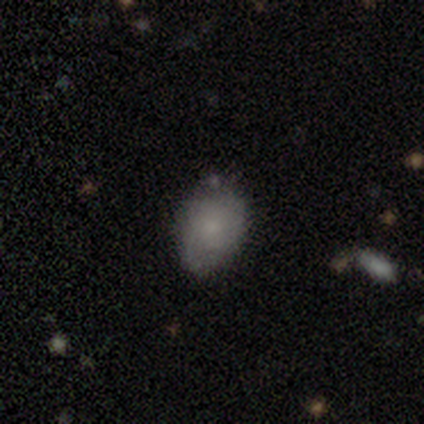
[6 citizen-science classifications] This is likely a featured or disk galaxy (67%). It is clearly not viewed edge-on (100%). Bar: likely no (75%). Spiral arm pattern: likely yes (75%). Spiral arm count: likely 2 (67%). Spiral winding: likely tight (67%). Central bulge: likely small (75%). Merging: likely none (67%).